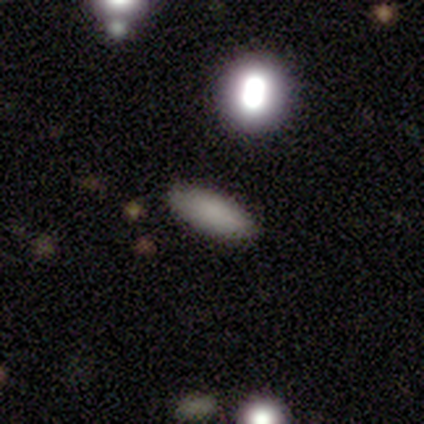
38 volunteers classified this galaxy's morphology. A smooth galaxy with no disk features (76%) that is in between round and cigar-shaped (59%).

Vote fractions:
- Smooth or featured? smooth: 76% / featured or disk: 13% / star or artifact: 11%
- How rounded? in between: 59% / cigar-shaped: 41% / round: 0%
- Merging? none: 82% / minor disturbance: 12% / major disturbance: 3% / merger: 3%